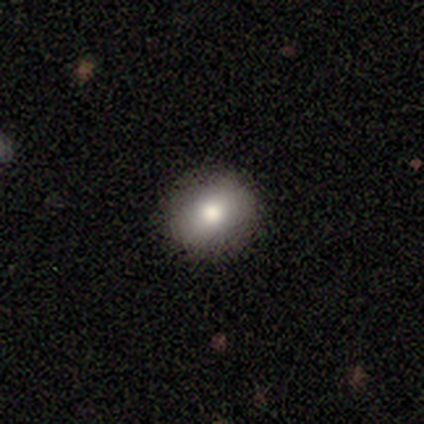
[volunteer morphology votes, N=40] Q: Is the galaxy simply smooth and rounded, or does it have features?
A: smooth — 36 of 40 (90%).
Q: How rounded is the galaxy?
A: round — 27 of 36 (75%).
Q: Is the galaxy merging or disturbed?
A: none — 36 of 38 (95%).